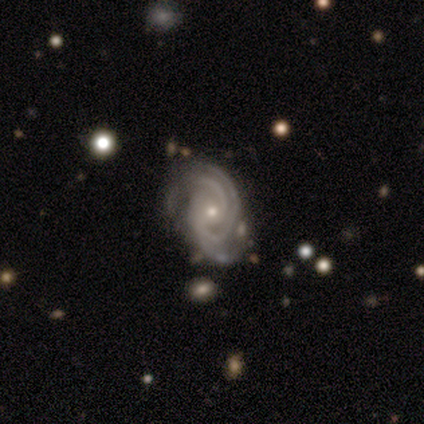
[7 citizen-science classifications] featured or disk 100%, smooth 0%, star or artifact 0%. Down the decision tree: edge-on disk — no (100%); bar — no (57%); spiral arms — yes (100%); spiral arm count — 3 (100%); spiral winding — tight (86%); bulge size — small (57%); merging — none (71%).